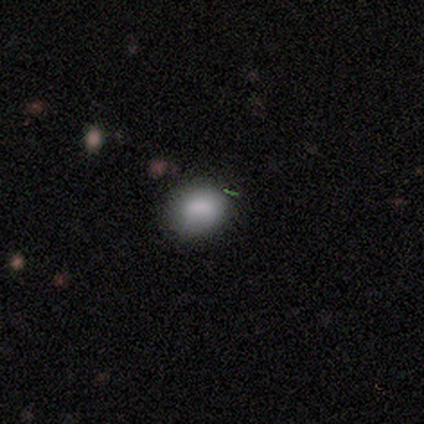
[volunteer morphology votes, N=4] This is possibly a smooth galaxy (50%, tied with featured or disk). How rounded: possibly round (50%, tied with in between). Merging: likely none (75%).